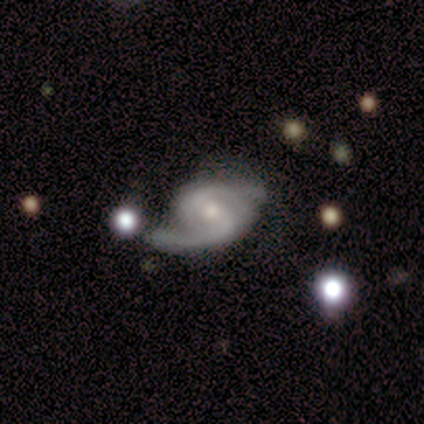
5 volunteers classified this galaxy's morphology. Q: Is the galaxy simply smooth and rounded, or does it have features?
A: featured or disk — 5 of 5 (100%).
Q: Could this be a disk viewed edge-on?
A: no — 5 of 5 (100%).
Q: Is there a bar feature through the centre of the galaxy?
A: weak — 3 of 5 (60%).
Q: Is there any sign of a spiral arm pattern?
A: yes — 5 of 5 (100%).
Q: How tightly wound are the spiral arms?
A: tight — 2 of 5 (40%, tied with loose).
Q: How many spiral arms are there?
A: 2 — 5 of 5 (100%).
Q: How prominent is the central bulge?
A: small — 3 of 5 (60%).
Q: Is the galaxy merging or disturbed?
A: none — 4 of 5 (80%).